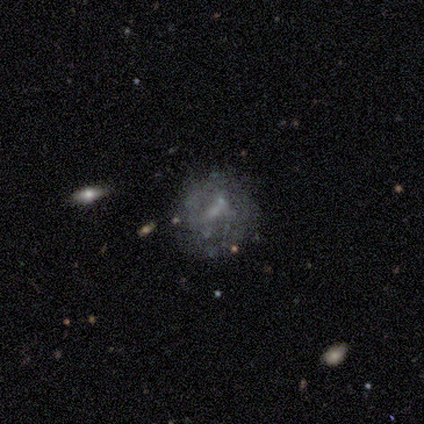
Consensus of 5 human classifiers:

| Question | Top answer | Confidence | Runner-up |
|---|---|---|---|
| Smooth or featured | featured or disk | 60% | smooth (20%) |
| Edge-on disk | no | 100% | — |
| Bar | no | 100% | — |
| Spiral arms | no | 100% | — |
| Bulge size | none | 67% | moderate (33%) |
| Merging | none | 75% | minor disturbance (25%) |